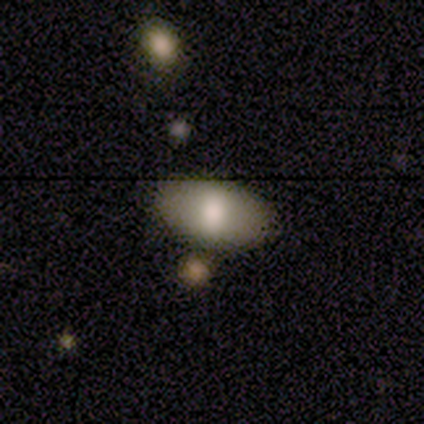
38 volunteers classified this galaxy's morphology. This appears to be a smooth galaxy with no disk features (87%) that is in between round and cigar-shaped (91%). Merging: none (74%).